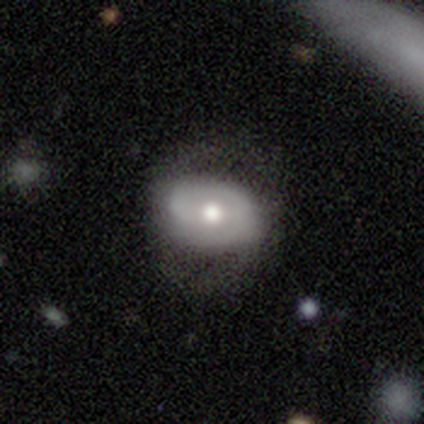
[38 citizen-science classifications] Smooth or featured? featured or disk (68%)
Edge-on disk? no (92%)
Bar? no (62%)
Spiral arms? yes (62%)
Spiral winding? tight (53%)
Spiral arm count? 2 (60%)
Bulge size? moderate (54%)
Merging? none (56%)